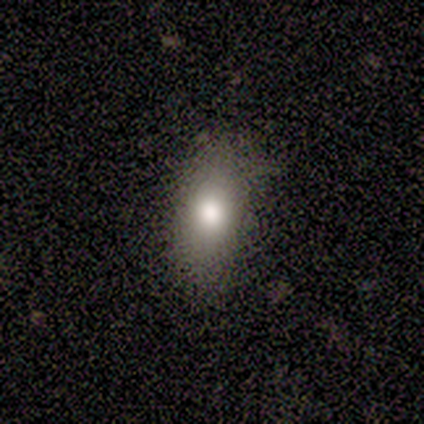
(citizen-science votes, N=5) Smooth or featured? smooth (80%)
How rounded? in between (75%)
Merging? none (100%)